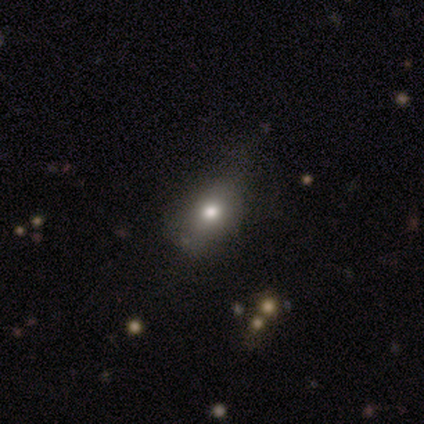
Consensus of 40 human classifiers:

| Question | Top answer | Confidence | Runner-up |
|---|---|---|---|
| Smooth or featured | smooth | 82% | featured or disk (15%) |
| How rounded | in between | 55% | round (33%) |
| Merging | none | 64% | minor disturbance (23%) |